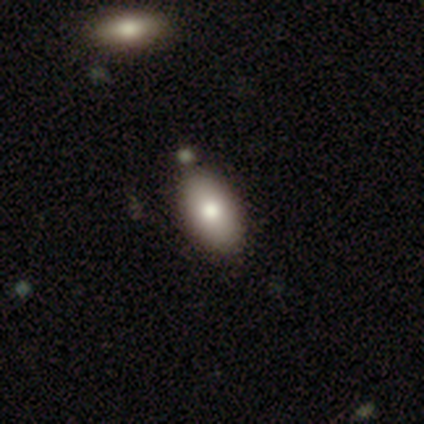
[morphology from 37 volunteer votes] Overall: smooth (84%). How rounded: in between (94%). Merging: none (51%; merger 11%).